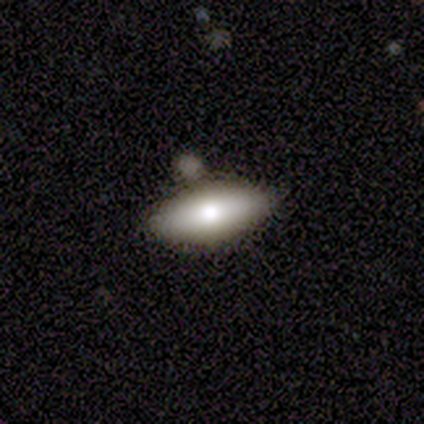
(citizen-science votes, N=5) smooth 80%, featured or disk 20%, star or artifact 0%. Down the decision tree: how rounded — in between (75%); merging — none (60%).